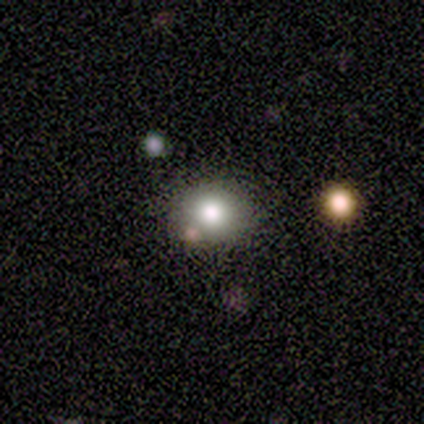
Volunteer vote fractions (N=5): Smooth or featured: smooth — 80% (star or artifact — 20%)
How rounded: round — 100%
Merging: none — 100%